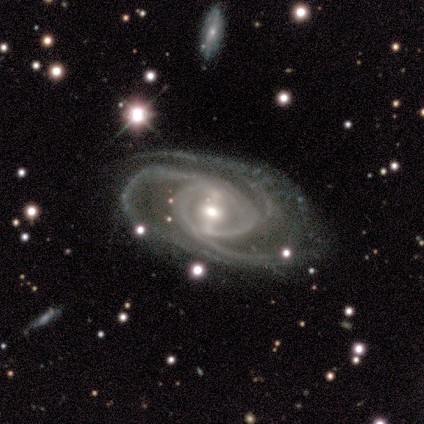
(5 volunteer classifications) Smooth or featured?
  - featured or disk: 100% *
  - smooth: 0%
  - star or artifact: 0%
Edge-on disk?
  - no: 100% *
  - yes: 0%
Bar?
  - strong: 40% * (tied)
  - weak: 40% * (tied)
  - no: 20%
Spiral arms?
  - yes: 100% *
  - no: 0%
Spiral winding?
  - medium: 80% *
  - tight: 20%
  - loose: 0%
Spiral arm count?
  - 3: 100% *
  - 1: 0%
  - 2: 0%
  - 4: 0%
  - more than 4: 0%
  - can't tell: 0%
Bulge size?
  - small: 60% *
  - moderate: 40%
  - dominant: 0%
  - large: 0%
  - none: 0%
Merging?
  - none: 80% *
  - major disturbance: 20%
  - minor disturbance: 0%
  - merger: 0%